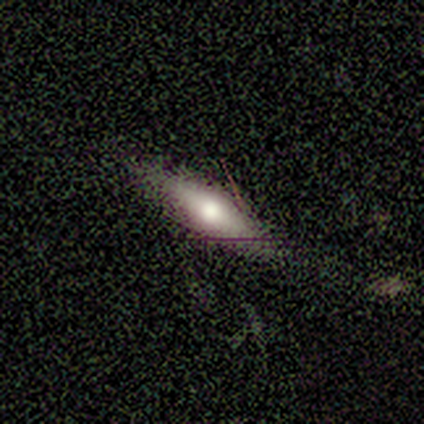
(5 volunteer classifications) Morphology: type=smooth (60%); roundness=cigar-shaped (100%); merging=none (80%).